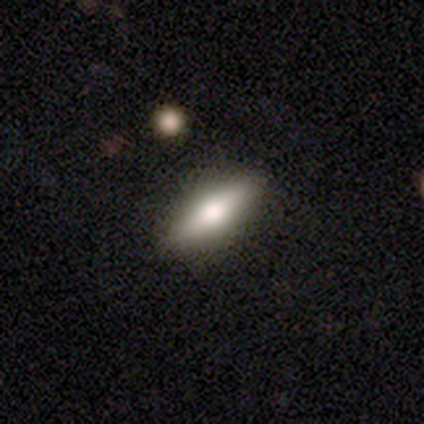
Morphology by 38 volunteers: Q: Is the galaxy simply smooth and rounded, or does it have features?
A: smooth — 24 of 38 (63%).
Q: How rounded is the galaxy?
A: in between — 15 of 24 (62%).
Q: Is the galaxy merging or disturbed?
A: none — 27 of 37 (73%).